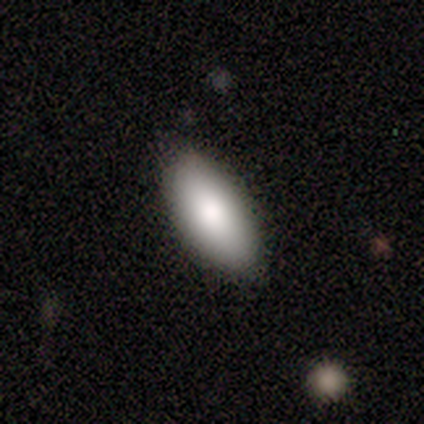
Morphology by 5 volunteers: type=smooth (80%); roundness=in between (75%); merging=none (100%).